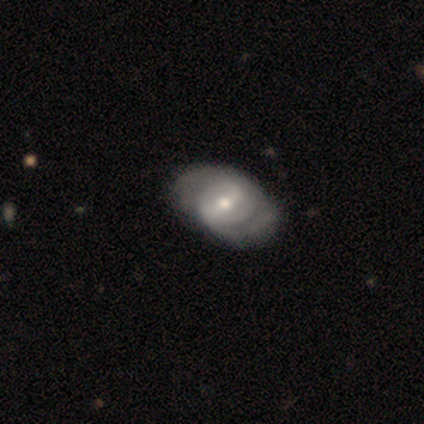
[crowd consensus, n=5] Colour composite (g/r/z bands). It shows a featured or disk galaxy (80%) with a weak bar (50%), 2 (100%) tight (67%) spiral arms (75%) and a small central bulge (50%). Merging: none (75%).